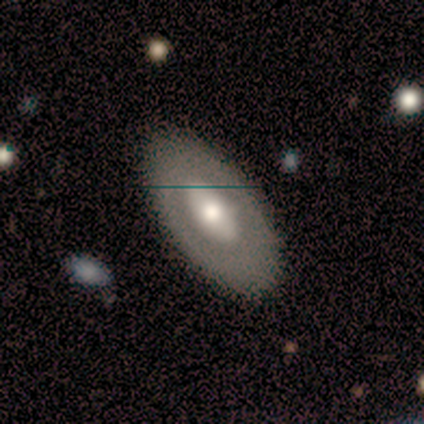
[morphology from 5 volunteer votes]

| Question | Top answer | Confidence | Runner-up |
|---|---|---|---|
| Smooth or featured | smooth | 60% | featured or disk (40%) |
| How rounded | in between | 100% | — |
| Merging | none | 100% | — |